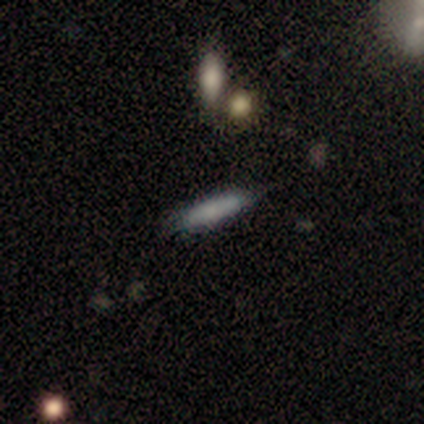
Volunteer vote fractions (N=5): A smooth galaxy with no disk features (100%) that is cigar-shaped (80%).

Vote fractions:
- Smooth or featured? smooth: 100% / featured or disk: 0% / star or artifact: 0%
- How rounded? cigar-shaped: 80% / in between: 20% / round: 0%
- Merging? none: 80% / minor disturbance: 20% / major disturbance: 0% / merger: 0%